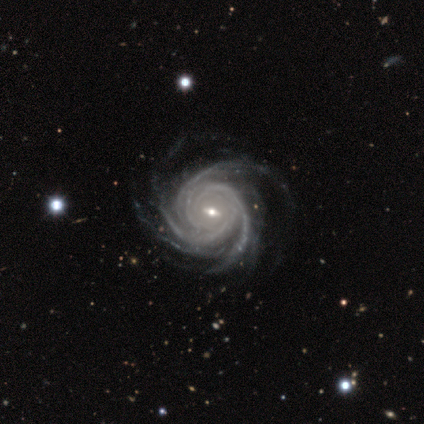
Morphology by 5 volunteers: Overall: featured or disk (100%). Edge-on disk: no (100%). Bar: weak (80%). Spiral arms: yes (100%). Spiral arm count: 4 (60%; 3 20%). Spiral winding: tight (60%; medium 40%). Bulge size: small (80%). Merging: none (60%; minor disturbance 40%).